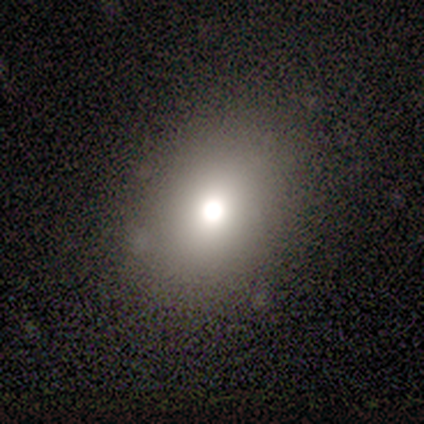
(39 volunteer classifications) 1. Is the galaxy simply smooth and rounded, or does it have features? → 69% smooth, 18% star or artifact, 13% featured or disk.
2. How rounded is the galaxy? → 63% in between, 37% round, 0% cigar-shaped.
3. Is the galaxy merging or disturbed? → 81% none, 9% minor disturbance, 9% major disturbance, 0% merger.